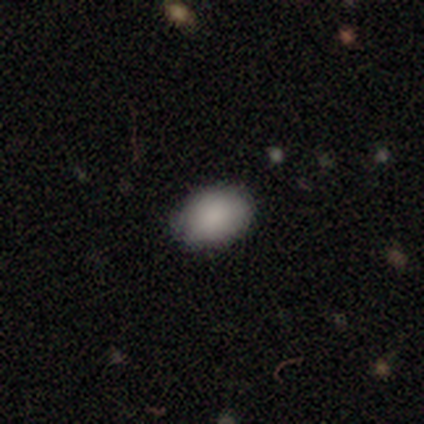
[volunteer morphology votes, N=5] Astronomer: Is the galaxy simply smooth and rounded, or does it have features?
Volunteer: smooth — 60% (runner-up: featured or disk, 40%).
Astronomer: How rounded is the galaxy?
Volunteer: in between — 67%.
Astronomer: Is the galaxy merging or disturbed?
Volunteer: none — 80%.